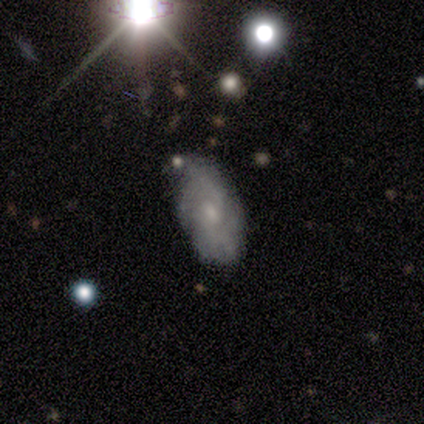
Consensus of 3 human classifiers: Morphology: type=smooth (67%); roundness=in between (100%); merging=minor disturbance (67%).